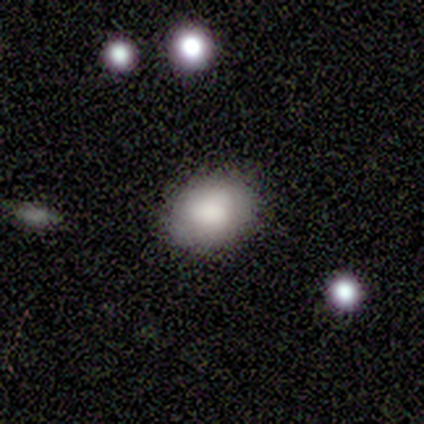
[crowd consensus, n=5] Smooth or featured? smooth (60%)
How rounded? in between (67%)
Merging? none (100%)